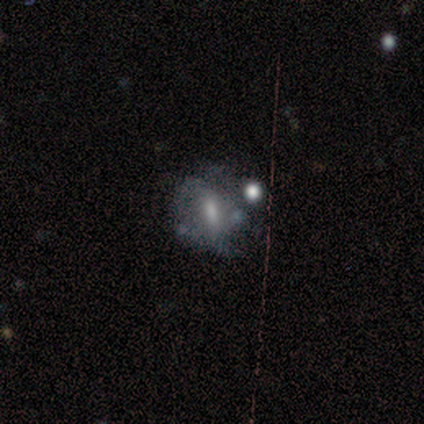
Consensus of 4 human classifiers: Overall: smooth (50%, tied with featured or disk). How rounded: in between (50%, tied with cigar-shaped). Merging: none (50%, tied with major disturbance).